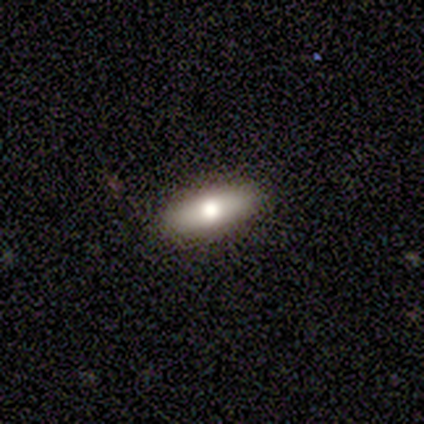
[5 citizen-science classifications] This is likely a smooth galaxy (60%). How rounded: likely in between (67%). Merging: clearly none (100%).